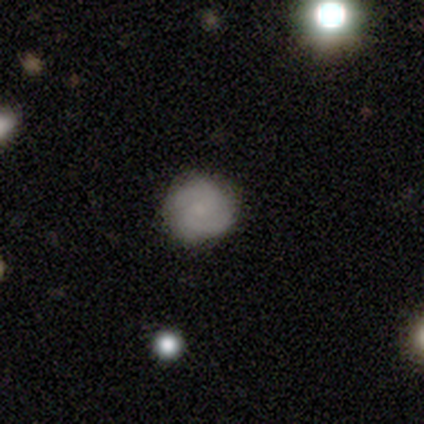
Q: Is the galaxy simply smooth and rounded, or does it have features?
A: smooth — 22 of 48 (46%).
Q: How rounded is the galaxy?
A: round — 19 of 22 (86%).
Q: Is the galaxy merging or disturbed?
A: none — 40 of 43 (93%).